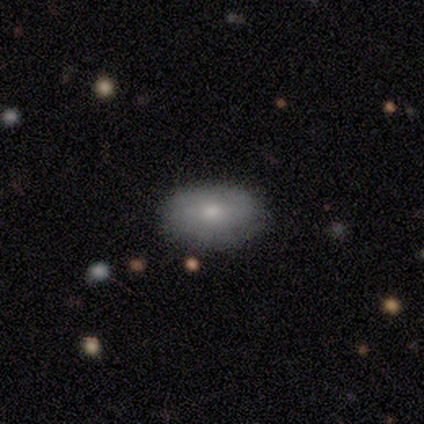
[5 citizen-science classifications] smooth 40% (tied), star or artifact 40% (tied), featured or disk 20%. Down the decision tree: how rounded — in between (100%); merging — none (100%).